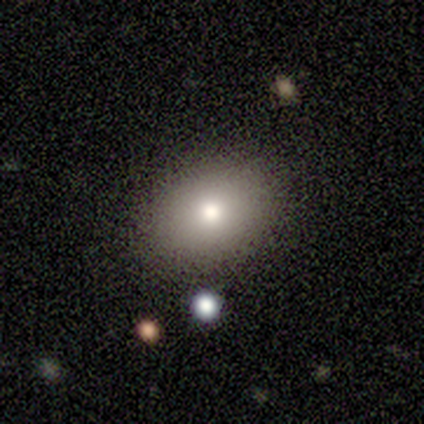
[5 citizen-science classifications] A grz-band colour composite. It shows a smooth galaxy with no disk features (100%) that is in between round and cigar-shaped (60%). Merging: none (80%).